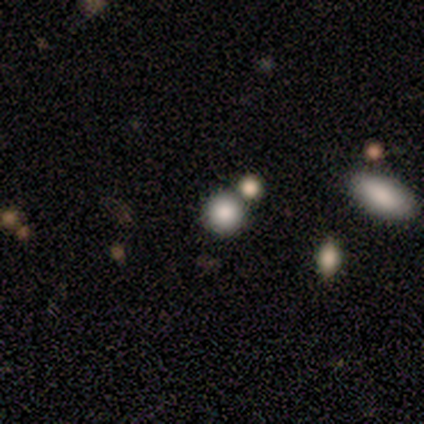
This is likely a smooth galaxy (79%). How rounded: clearly round (93%). Merging: likely none (76%).